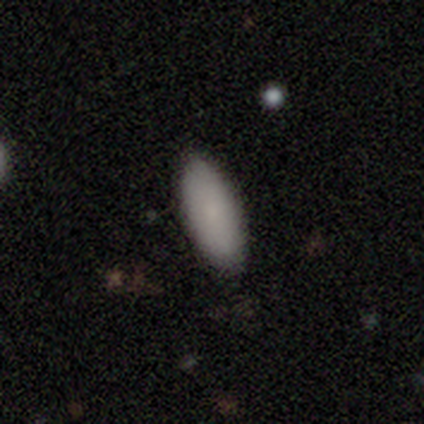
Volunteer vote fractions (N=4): Morphology: type=smooth (100%); roundness=in between (100%); merging=none (100%).